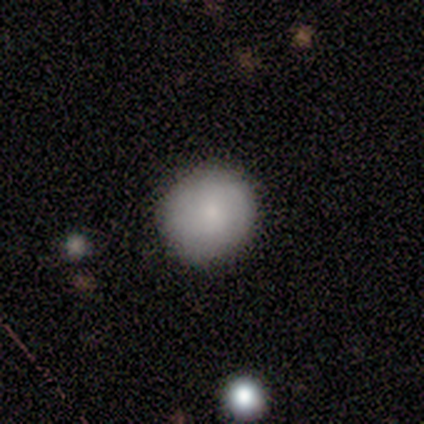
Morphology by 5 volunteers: Volunteers were most divided on "smooth or featured": smooth: 80%, featured or disk: 20%, star or artifact: 0%. More confident: how rounded — round (100%); merging — none (100%).